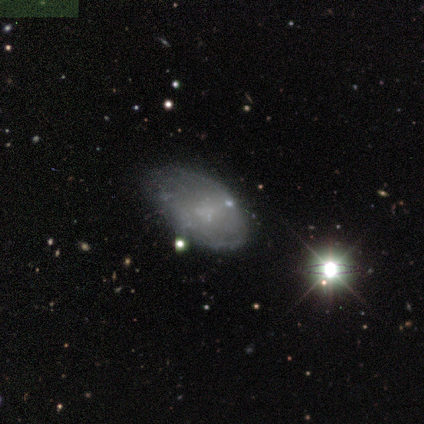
Q: Smooth or featured?
A: featured or disk (80%); runner-up: star or artifact (20%)
Q: Edge-on disk?
A: no (100%)
Q: Bar?
A: no (50%); runner-up: strong (25%)
Q: Spiral arms?
A: yes (50%); tied with: no (50%)
Q: Spiral winding?
A: tight (50%); tied with: loose (50%)
Q: Spiral arm count?
A: 4 (50%); tied with: can't tell (50%)
Q: Bulge size?
A: none (75%); runner-up: small (25%)
Q: Merging?
A: minor disturbance (50%); runner-up: none (25%)